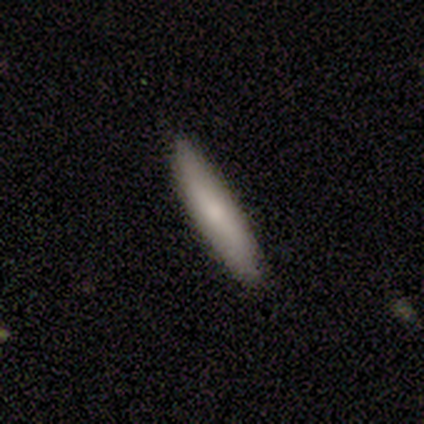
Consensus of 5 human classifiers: This appears to be a smooth galaxy with no disk features (60%) that is in between round and cigar-shaped (67%). Merging: none (100%).